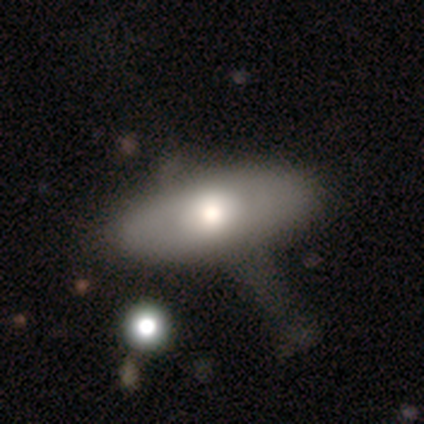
smooth 73%, featured or disk 18%, star or artifact 9%. Down the decision tree: how rounded — in between (100%); merging — minor disturbance (40%, tied with major disturbance).